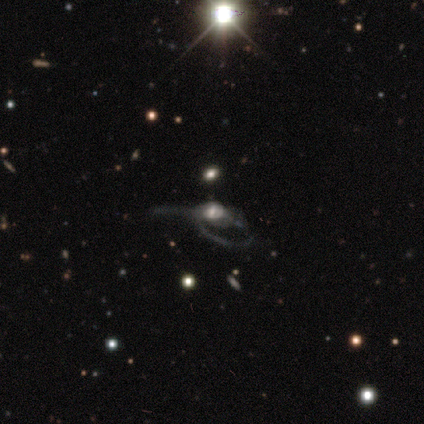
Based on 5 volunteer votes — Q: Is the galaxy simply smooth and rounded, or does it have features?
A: featured or disk — 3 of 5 (60%).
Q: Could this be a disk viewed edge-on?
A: no — 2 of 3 (67%).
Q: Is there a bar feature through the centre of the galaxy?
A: weak — 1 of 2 (50%, tied with no).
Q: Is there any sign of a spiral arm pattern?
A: yes — 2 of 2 (100%).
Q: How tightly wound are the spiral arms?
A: tight — 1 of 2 (50%, tied with medium).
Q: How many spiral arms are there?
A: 1 — 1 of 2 (50%, tied with 2).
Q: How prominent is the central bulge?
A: moderate — 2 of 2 (100%).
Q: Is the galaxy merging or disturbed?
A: none — 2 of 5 (40%, tied with major disturbance).